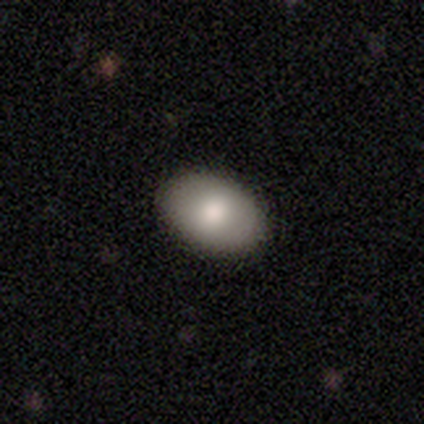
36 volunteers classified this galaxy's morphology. Q: Smooth or featured?
A: smooth (78%); runner-up: featured or disk (19%)
Q: How rounded?
A: in between (71%); runner-up: round (29%)
Q: Merging?
A: none (91%); runner-up: minor disturbance (6%)